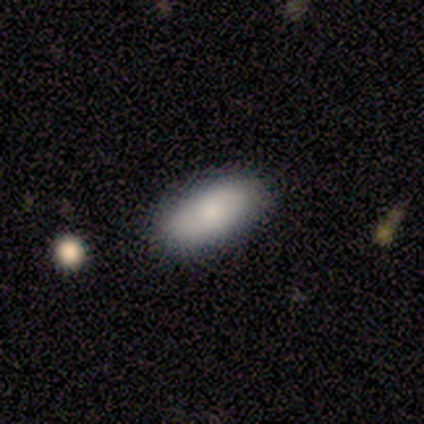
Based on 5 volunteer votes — smooth 100%, featured or disk 0%, star or artifact 0%. Down the decision tree: how rounded — in between (100%); merging — none (80%).